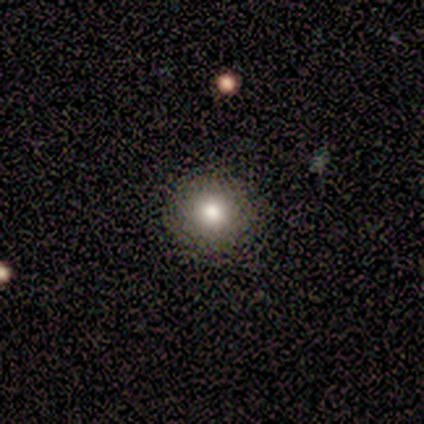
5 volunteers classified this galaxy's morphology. A smooth galaxy with no disk features (80%) that is round (100%). Merging: none (100%).